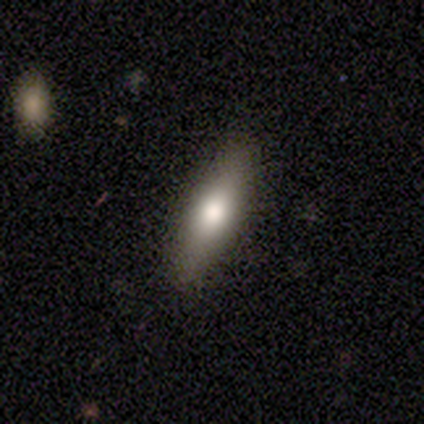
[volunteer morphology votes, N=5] smooth 60%, star or artifact 40%, featured or disk 0%. Down the decision tree: how rounded — in between (67%); merging — none (67%).